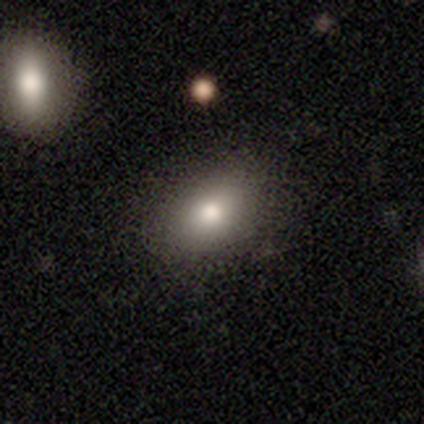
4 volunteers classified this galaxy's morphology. smooth-or-featured: smooth: 75% | featured or disk: 25% | star or artifact: 0%
  how-rounded: in between: 67% | round: 33% | cigar-shaped: 0%
  merging: none: 75% | minor disturbance: 25% | major disturbance: 0% | merger: 0%